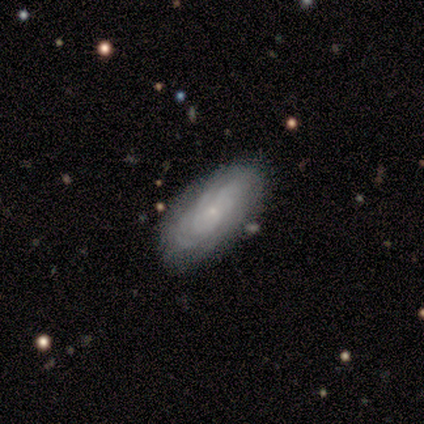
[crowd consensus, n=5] Volunteers were most divided on "spiral arm count" (2-way tie): 2: 50%, can't tell: 50%, 1: 0%, 3: 0%, 4: 0%, more than 4: 0%. More confident: edge-on disk — no (100%); bar — no (100%); spiral arms — yes (100%); spiral winding — tight (100%); bulge size — small (100%); merging — none (100%); smooth or featured — featured or disk (80%).